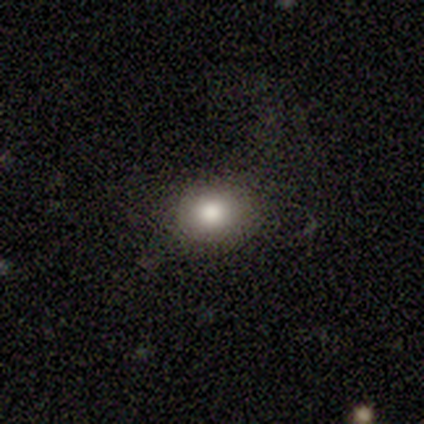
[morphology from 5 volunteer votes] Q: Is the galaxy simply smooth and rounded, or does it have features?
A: smooth — 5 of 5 (100%).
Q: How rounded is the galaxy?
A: in between — 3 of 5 (60%).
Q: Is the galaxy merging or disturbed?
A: none — 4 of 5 (80%).